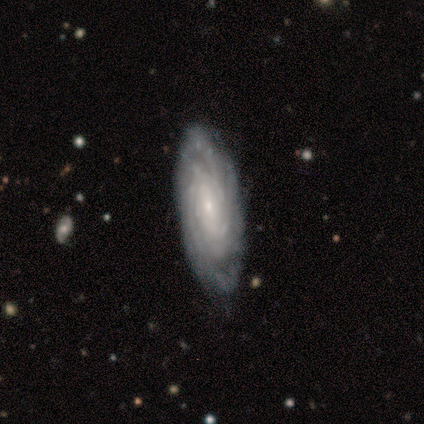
Smooth or featured? featured or disk (60%)
Edge-on disk? no (100%)
Bar? no (67%)
Spiral arms? yes (100%)
Spiral winding? tight (100%)
Spiral arm count? can't tell (67%)
Bulge size? small (100%)
Merging? none (100%)